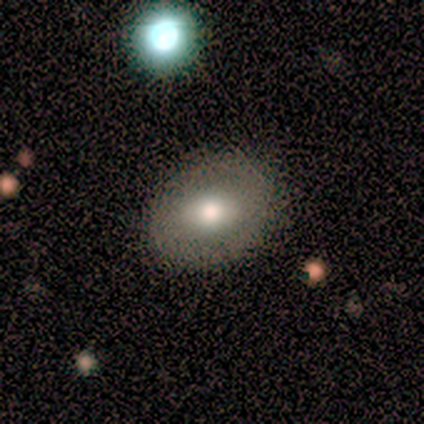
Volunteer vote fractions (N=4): Smooth or featured: smooth — 75% (featured or disk — 25%)
How rounded: in between — 67% (round — 33%)
Merging: none — 100%